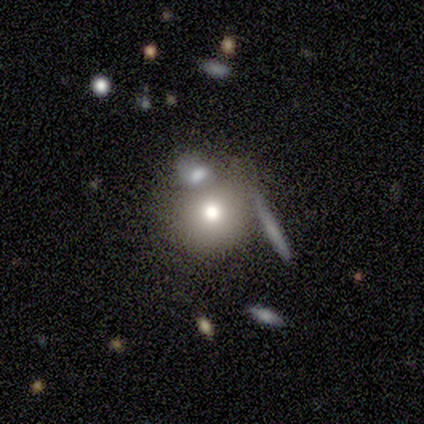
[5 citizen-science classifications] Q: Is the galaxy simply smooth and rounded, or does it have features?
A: smooth — 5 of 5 (100%).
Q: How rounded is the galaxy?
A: round — 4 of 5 (80%).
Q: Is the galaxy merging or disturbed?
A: minor disturbance — 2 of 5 (40%, tied with merger).